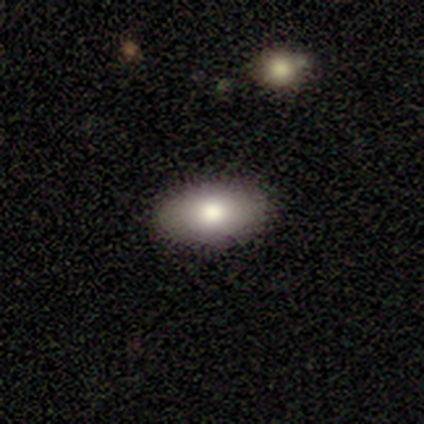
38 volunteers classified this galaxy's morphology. type=smooth (74%); roundness=in between (100%); merging=none (97%).